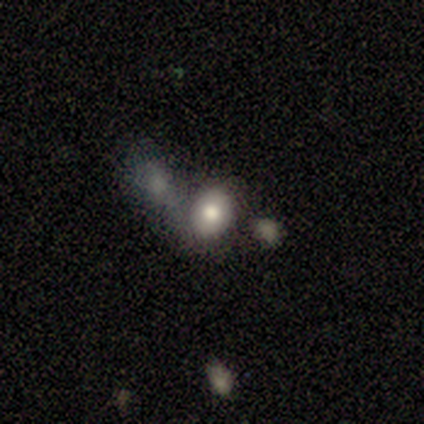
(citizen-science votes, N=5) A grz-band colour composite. It shows a smooth galaxy with no disk features (80%) that is round (100%). Merging: none (60%).